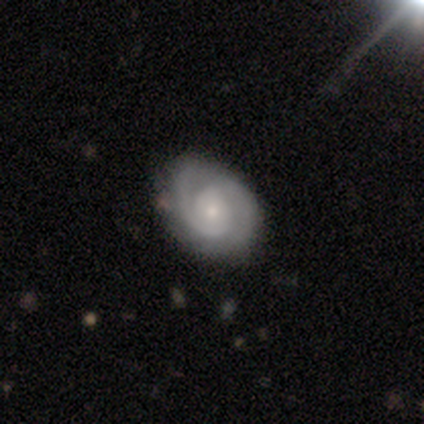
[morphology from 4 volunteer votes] smooth_or_featured: featured or disk (p=1.00)
disk_edge_on: no (p=1.00)
bar: no (p=0.75) [alt: weak p=0.25]
has_spiral_arms: yes (p=0.75) [alt: no p=0.25]
spiral_winding: tight (p=0.67) [alt: medium p=0.33]
spiral_arm_count: 2 (p=1.00)
bulge_size: small (p=0.75) [alt: moderate p=0.25]
merging: none (p=0.50) [tied with: minor disturbance p=0.50]